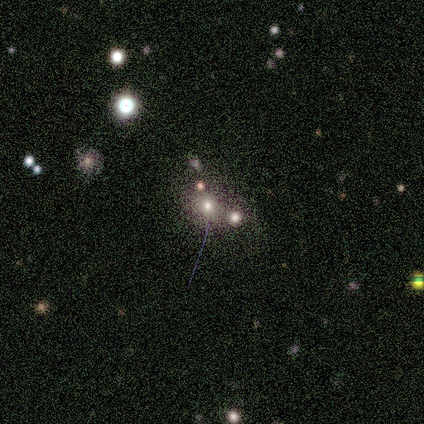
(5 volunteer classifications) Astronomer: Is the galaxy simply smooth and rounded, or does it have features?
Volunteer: smooth — 40%, tied with star or artifact at 40%.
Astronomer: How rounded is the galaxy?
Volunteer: round — 100%.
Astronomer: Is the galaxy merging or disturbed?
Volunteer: none — 100%.